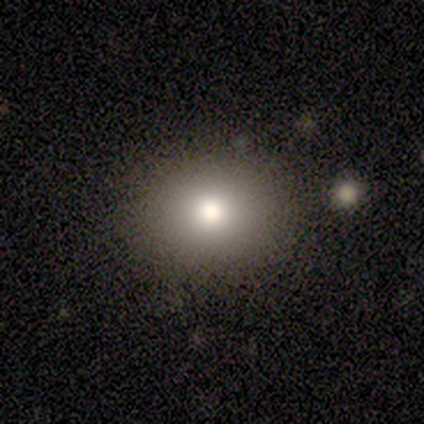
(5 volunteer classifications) smooth_or_featured: smooth (p=0.80) [alt: star or artifact p=0.20]
how_rounded: in between (p=1.00)
merging: none (p=0.50) [alt: minor disturbance p=0.25]